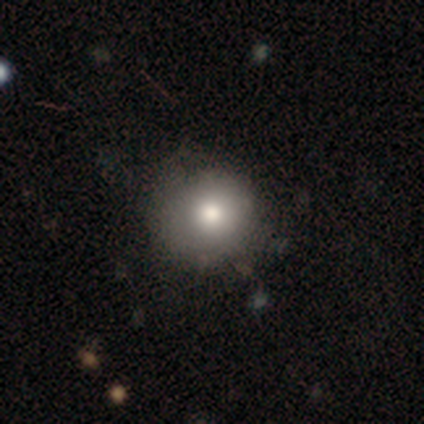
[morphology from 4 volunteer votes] Smooth or featured?
  - smooth: 75% *
  - featured or disk: 25%
  - star or artifact: 0%
How rounded?
  - round: 67% *
  - in between: 33%
  - cigar-shaped: 0%
Merging?
  - none: 50% * (tied)
  - minor disturbance: 50% * (tied)
  - major disturbance: 0%
  - merger: 0%